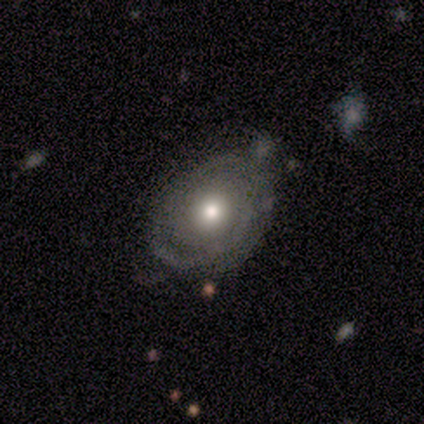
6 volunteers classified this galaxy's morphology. Smooth or featured: featured or disk — 83% (smooth — 17%)
Edge-on disk: no — 100%
Bar: no — 100%
Spiral arms: no — 60% (yes — 40%)
Bulge size: moderate — 60% (small — 40%)
Merging: none — 67% (minor disturbance — 33%)